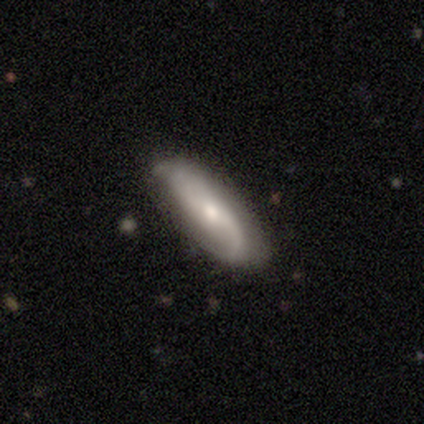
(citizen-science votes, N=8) Smooth or featured: featured or disk — 50% (smooth — 38%)
Edge-on disk: no — 100%
Bar: no — 75% (weak — 25%)
Spiral arms: yes — 100%
Spiral winding: loose — 75% (tight — 25%)
Spiral arm count: 1 — 50% (tied with 2 — 50%)
Bulge size: small — 100%
Merging: none — 86% (major disturbance — 14%)